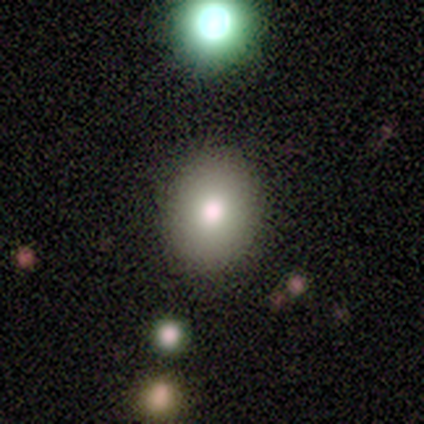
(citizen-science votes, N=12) Smooth or featured: smooth — 67% (featured or disk — 25%)
How rounded: in between — 88% (round — 12%)
Merging: none — 100%